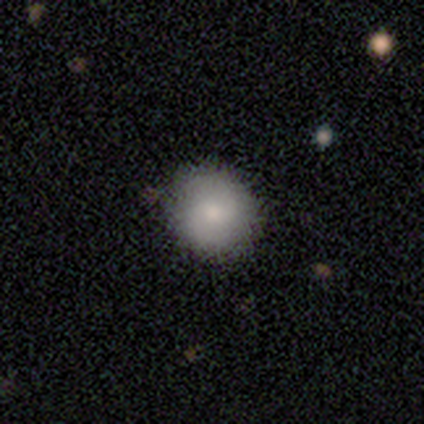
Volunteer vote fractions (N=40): Morphology: type=smooth (68%); roundness=round (93%); merging=none (62%).